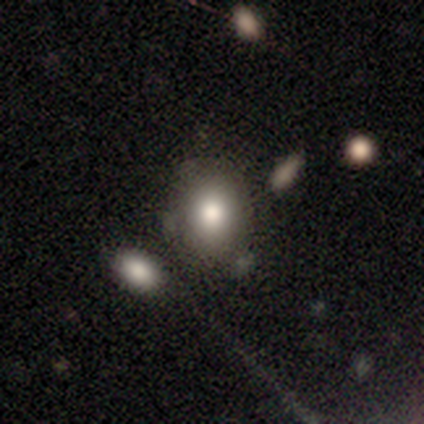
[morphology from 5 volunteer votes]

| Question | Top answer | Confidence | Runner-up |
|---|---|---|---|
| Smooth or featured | smooth | 100% | — |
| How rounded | in between | 80% | round (20%) |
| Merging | none | 40% | tied: minor disturbance (40%) |